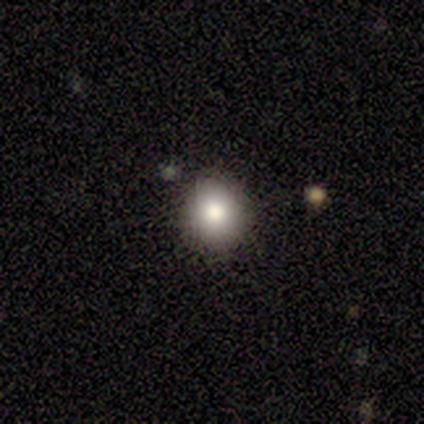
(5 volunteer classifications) Smooth or featured? smooth (80%)
How rounded? round (100%)
Merging? none (100%)